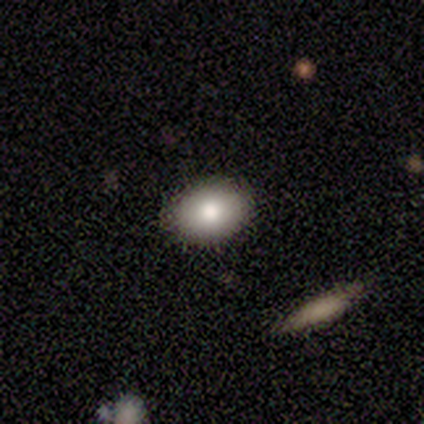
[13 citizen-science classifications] Smooth or featured?
  - smooth: 92% *
  - featured or disk: 8%
  - star or artifact: 0%
How rounded?
  - in between: 83% *
  - round: 17%
  - cigar-shaped: 0%
Merging?
  - none: 92% *
  - minor disturbance: 8%
  - major disturbance: 0%
  - merger: 0%